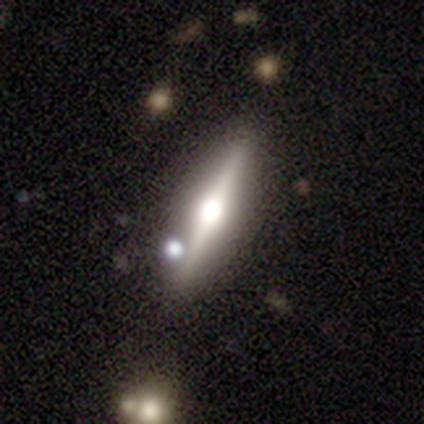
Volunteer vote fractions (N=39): smooth-or-featured: featured or disk: 74% | smooth: 23% | star or artifact: 3%
  disk-edge-on: yes: 97% | no: 3%
    edge-on-bulge: rounded: 96% | none: 4% | boxy: 0%
  merging: none: 89% | minor disturbance: 5% | major disturbance: 3% | merger: 3%